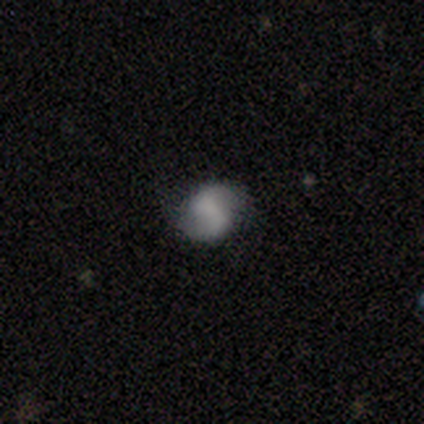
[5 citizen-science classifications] smooth-or-featured: smooth: 60% | featured or disk: 40% | star or artifact: 0%
  how-rounded: in between: 67% | round: 33% | cigar-shaped: 0%
  merging: none: 100% | minor disturbance: 0% | major disturbance: 0% | merger: 0%